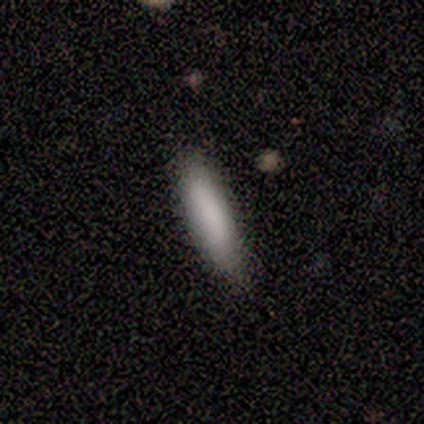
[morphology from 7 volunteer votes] smooth_or_featured: smooth (p=1.00)
how_rounded: in between (p=0.57) [alt: cigar-shaped p=0.43]
merging: none (p=0.86) [alt: minor disturbance p=0.14]